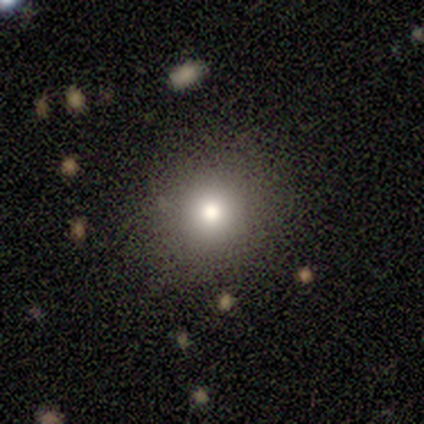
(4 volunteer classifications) smooth-or-featured: smooth: 75% | featured or disk: 25% | star or artifact: 0%
  how-rounded: round: 100% | in between: 0% | cigar-shaped: 0%
  merging: none: 100% | minor disturbance: 0% | major disturbance: 0% | merger: 0%